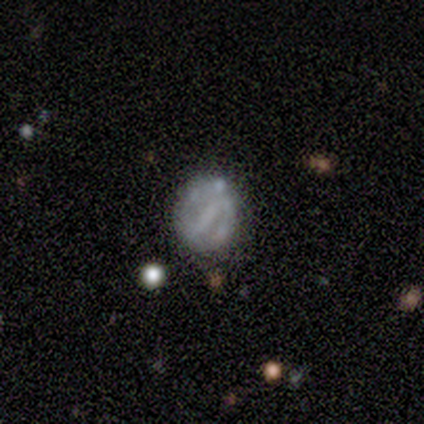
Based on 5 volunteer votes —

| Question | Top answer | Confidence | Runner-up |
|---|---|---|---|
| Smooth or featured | featured or disk | 80% | smooth (20%) |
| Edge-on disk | no | 100% | — |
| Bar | strong | 50% | weak (25%) |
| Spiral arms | yes | 50% | tied: no (50%) |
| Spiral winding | tight | 100% | — |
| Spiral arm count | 2 | 50% | tied: can't tell (50%) |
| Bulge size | none | 100% | — |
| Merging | major disturbance | 40% | none (20%) |